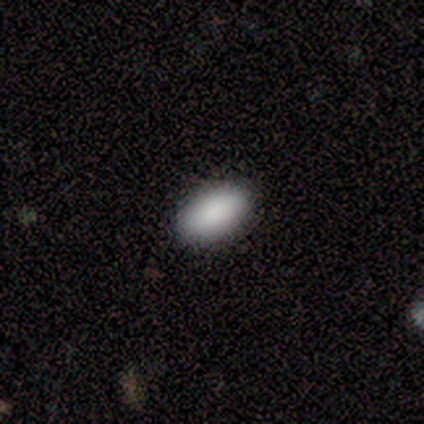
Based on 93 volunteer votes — This appears to be a smooth galaxy with no disk features (91%) that is in between round and cigar-shaped (95%). Merging: none (95%).